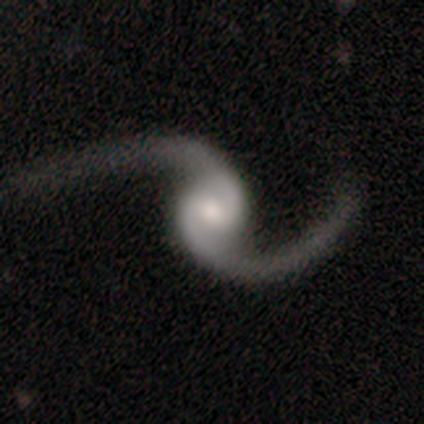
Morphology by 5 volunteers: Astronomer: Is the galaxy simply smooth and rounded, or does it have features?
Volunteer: featured or disk — 100%.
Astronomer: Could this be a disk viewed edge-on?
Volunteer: no — 80%.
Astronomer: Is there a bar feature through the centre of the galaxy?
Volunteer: weak — 75%.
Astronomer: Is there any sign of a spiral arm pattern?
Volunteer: yes — 100%.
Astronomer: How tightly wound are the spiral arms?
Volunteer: loose — 100%.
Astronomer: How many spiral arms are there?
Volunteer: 2 — 100%.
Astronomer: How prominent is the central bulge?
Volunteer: moderate — 100%.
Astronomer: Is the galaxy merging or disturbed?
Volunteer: none — 40%, tied with major disturbance at 40%.